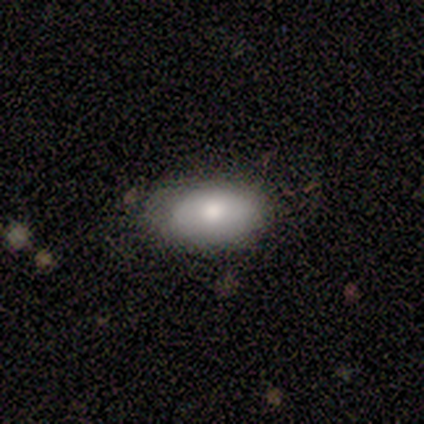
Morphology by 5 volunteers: smooth 60%, featured or disk 40%, star or artifact 0%. Down the decision tree: how rounded — in between (100%); merging — none (80%).